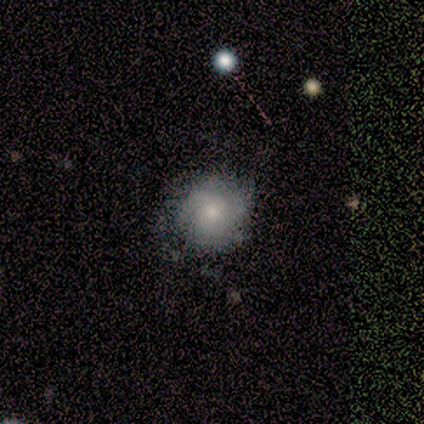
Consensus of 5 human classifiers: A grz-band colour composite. It shows a smooth galaxy with no disk features (60%) that is round (67%). Merging: none (80%).